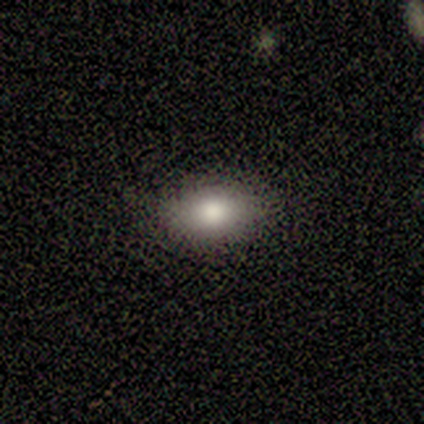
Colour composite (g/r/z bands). It shows a smooth galaxy with no disk features (80%) that is in between round and cigar-shaped (75%). Merging: none (80%).